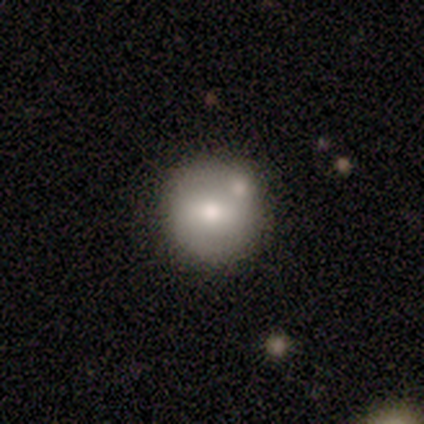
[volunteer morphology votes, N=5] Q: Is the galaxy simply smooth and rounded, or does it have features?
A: smooth — 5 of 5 (100%).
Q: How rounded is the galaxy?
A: round — 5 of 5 (100%).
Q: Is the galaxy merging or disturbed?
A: none — 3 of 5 (60%).